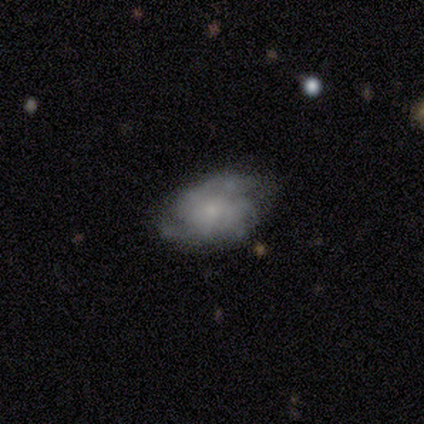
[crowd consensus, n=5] smooth-or-featured: featured or disk: 60% | smooth: 40% | star or artifact: 0%
  disk-edge-on: no: 100% | yes: 0%
    bar: no: 100% | strong: 0% | weak: 0%
    has-spiral-arms: yes: 100% | no: 0%
      spiral-winding: medium: 67% | tight: 33% | loose: 0%
      spiral-arm-count: 2: 67% | 3: 33% | 1: 0% | 4: 0% | more than 4: 0% | can't tell: 0%
    bulge-size: large: 33% (tied) | moderate: 33% (tied) | small: 33% (tied) | dominant: 0% | none: 0%
  merging: none: 80% | major disturbance: 20% | minor disturbance: 0% | merger: 0%